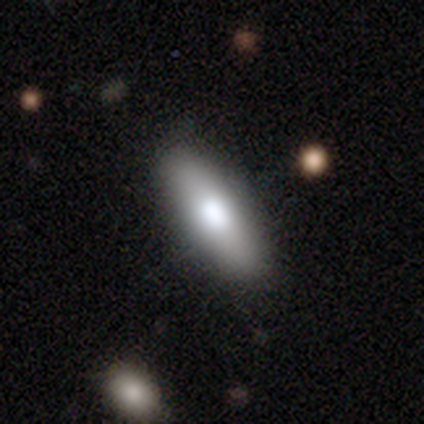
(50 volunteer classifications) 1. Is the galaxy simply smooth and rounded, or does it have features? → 74% smooth, 20% featured or disk, 6% star or artifact.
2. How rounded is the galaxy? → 70% in between, 30% cigar-shaped, 0% round.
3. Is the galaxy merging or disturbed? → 89% none, 6% minor disturbance, 2% major disturbance, 2% merger.